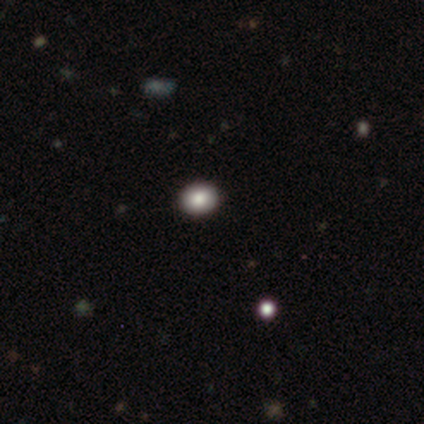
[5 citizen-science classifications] This appears to be a smooth galaxy with no disk features (80%) that is round (75%). Merging: none (100%).